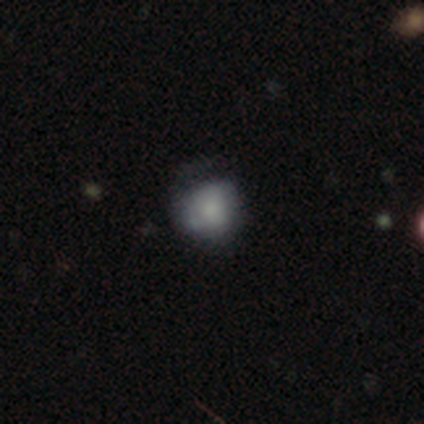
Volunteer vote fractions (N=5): Q: Smooth or featured?
A: smooth (80%); runner-up: featured or disk (20%)
Q: How rounded?
A: round (100%)
Q: Merging?
A: none (80%); runner-up: minor disturbance (20%)